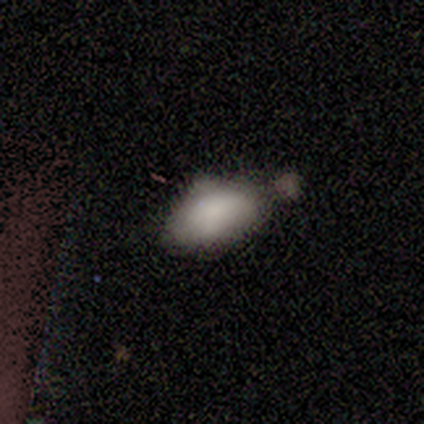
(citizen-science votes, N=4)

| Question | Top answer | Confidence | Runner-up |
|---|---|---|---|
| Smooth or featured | smooth | 100% | — |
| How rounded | in between | 100% | — |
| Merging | minor disturbance | 50% | tied: merger (50%) |